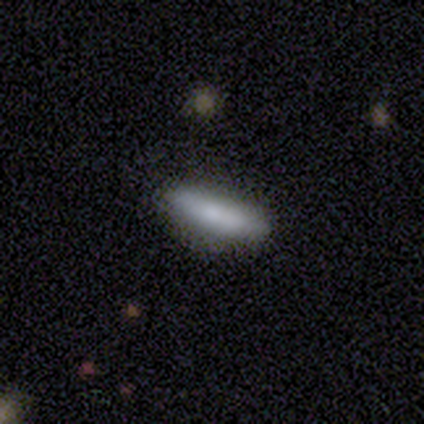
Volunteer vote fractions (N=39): Q: Smooth or featured?
A: smooth (72%); runner-up: featured or disk (18%)
Q: How rounded?
A: cigar-shaped (68%); runner-up: in between (32%)
Q: Merging?
A: none (74%); runner-up: minor disturbance (17%)